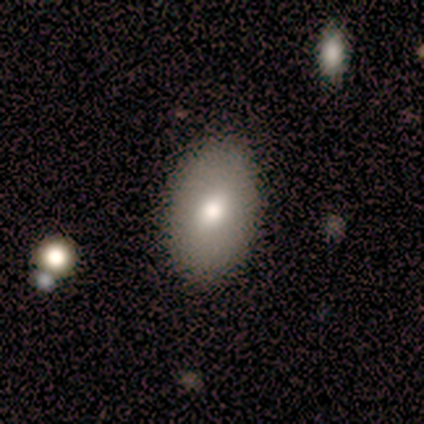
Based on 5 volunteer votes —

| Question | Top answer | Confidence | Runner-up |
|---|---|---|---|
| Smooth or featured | smooth | 80% | featured or disk (20%) |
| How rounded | in between | 100% | — |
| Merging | none | 80% | minor disturbance (20%) |